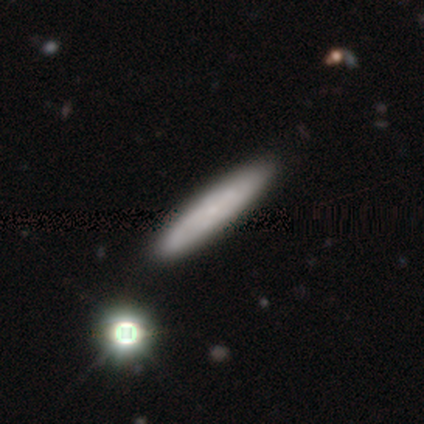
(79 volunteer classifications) smooth 58%, featured or disk 33%, star or artifact 9%. Down the decision tree: how rounded — cigar-shaped (87%); merging — none (46%).